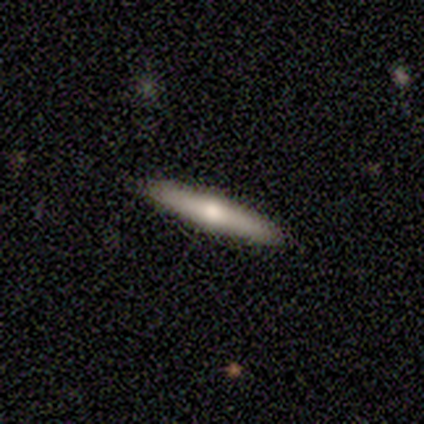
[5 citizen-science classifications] Smooth or featured: smooth — 60% (featured or disk — 40%)
How rounded: cigar-shaped — 100%
Merging: none — 100%